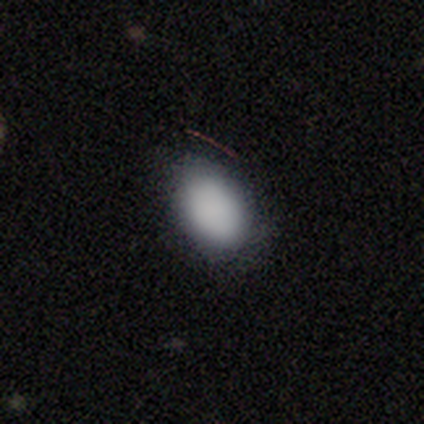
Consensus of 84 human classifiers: Smooth or featured?
  - smooth: 87% *
  - featured or disk: 8%
  - star or artifact: 5%
How rounded?
  - in between: 88% *
  - round: 10%
  - cigar-shaped: 3%
Merging?
  - none: 82% *
  - minor disturbance: 12%
  - major disturbance: 5%
  - merger: 0%